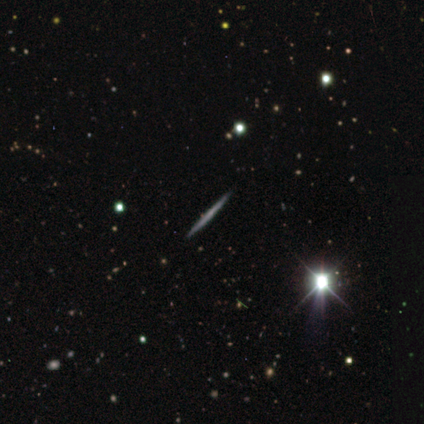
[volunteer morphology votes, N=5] Smooth or featured? featured or disk (60%)
Edge-on disk? yes (100%)
Edge-on bulge? none (100%)
Merging? none (80%)